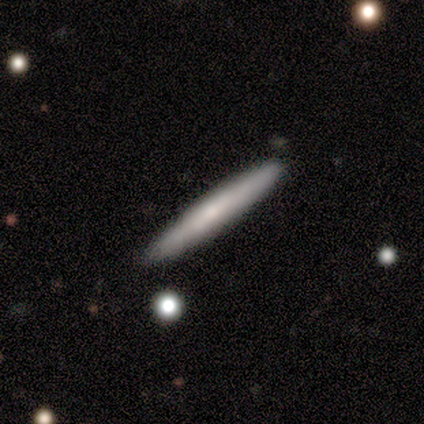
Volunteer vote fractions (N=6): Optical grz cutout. It shows a featured or disk galaxy (67%) viewed edge-on (75%) with a rounded central bulge (67%). Merging: none (100%).